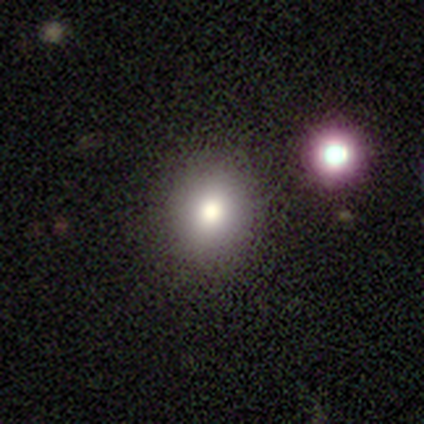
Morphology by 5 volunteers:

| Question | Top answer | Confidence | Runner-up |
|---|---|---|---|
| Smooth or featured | smooth | 60% | featured or disk (20%) |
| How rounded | round | 100% | — |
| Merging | none | 50% | major disturbance (25%) |